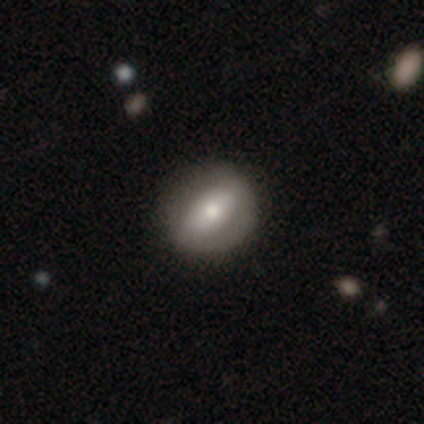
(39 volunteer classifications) Q: Smooth or featured?
A: featured or disk (51%); runner-up: smooth (44%)
Q: Edge-on disk?
A: no (75%); runner-up: yes (25%)
Q: Bar?
A: no (40%); runner-up: strong (33%)
Q: Spiral arms?
A: no (60%); runner-up: yes (40%)
Q: Bulge size?
A: moderate (93%); runner-up: small (7%)
Q: Merging?
A: none (84%); runner-up: minor disturbance (16%)